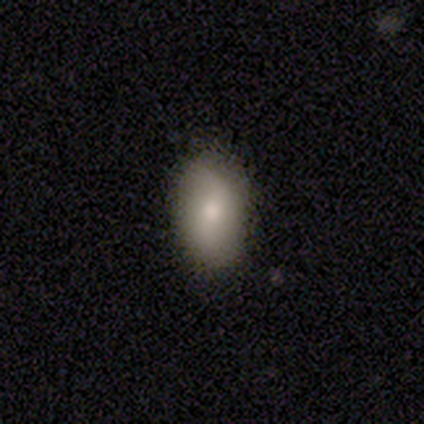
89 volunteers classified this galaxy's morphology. smooth_or_featured: smooth (p=0.74) [alt: featured or disk p=0.20]
how_rounded: in between (p=0.88) [alt: round p=0.11]
merging: none (p=0.81) [alt: minor disturbance p=0.13]